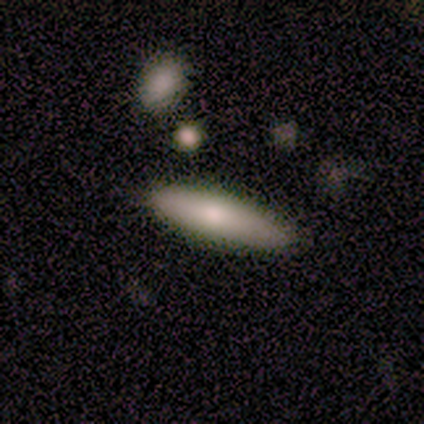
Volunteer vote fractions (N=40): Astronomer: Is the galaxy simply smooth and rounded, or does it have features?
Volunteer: smooth — 57% (runner-up: featured or disk, 35%).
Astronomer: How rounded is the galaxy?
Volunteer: cigar-shaped — 96%.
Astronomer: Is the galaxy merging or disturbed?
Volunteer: none — 81%.